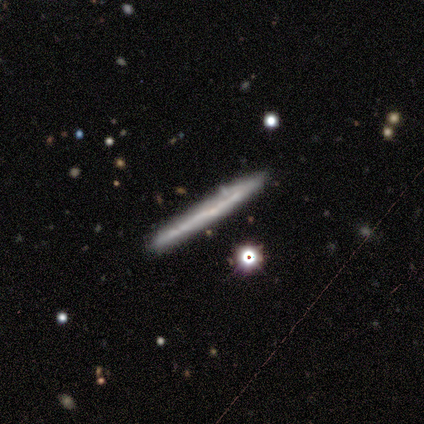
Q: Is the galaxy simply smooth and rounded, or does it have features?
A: featured or disk — 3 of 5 (60%).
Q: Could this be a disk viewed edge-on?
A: yes — 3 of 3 (100%).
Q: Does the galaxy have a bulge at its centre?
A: none — 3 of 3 (100%).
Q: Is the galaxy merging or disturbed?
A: none — 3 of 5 (60%).